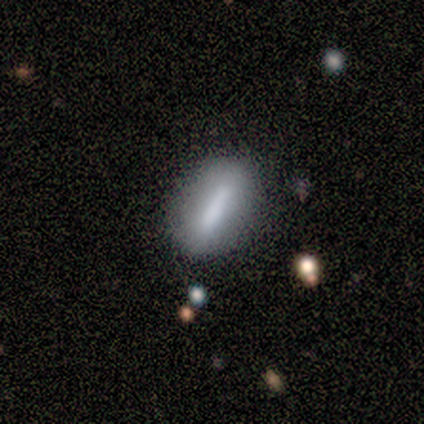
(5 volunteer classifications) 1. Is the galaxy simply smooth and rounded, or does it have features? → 80% smooth, 20% star or artifact, 0% featured or disk.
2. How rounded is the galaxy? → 75% in between, 25% cigar-shaped, 0% round.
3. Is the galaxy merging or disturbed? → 75% none, 25% minor disturbance, 0% major disturbance, 0% merger.